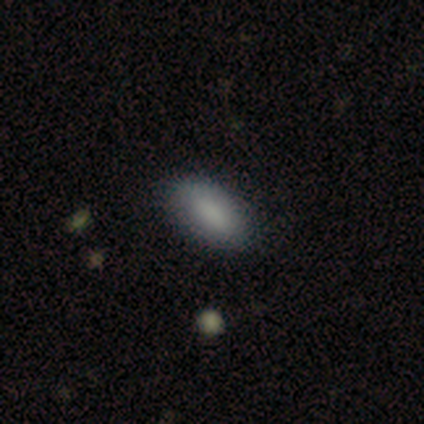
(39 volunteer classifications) Overall: smooth (87%). How rounded: in between (88%). Merging: none (92%).